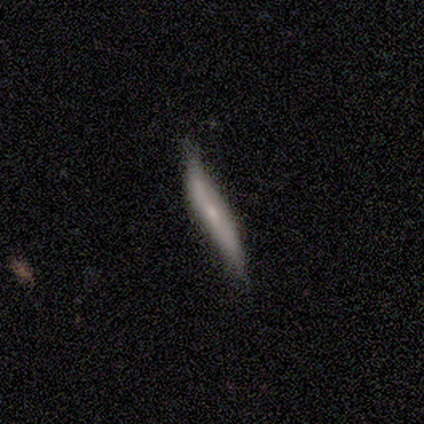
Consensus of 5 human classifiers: Overall: smooth (80%). How rounded: cigar-shaped (100%). Merging: minor disturbance (60%; none 40%).